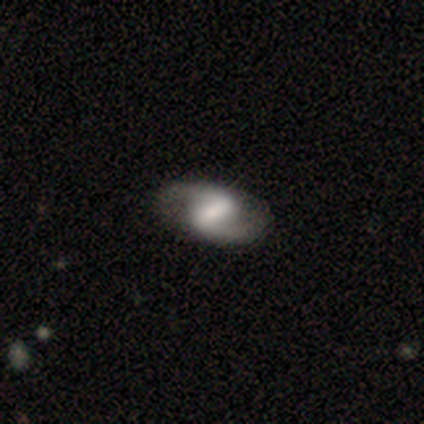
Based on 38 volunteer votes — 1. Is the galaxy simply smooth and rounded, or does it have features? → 76% featured or disk, 16% smooth, 8% star or artifact.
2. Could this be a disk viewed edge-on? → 100% no, 0% yes.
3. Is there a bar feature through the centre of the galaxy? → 45% weak, 41% strong, 14% no.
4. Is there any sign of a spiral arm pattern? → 93% yes, 7% no.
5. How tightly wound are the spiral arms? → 59% medium, 30% loose, 11% tight.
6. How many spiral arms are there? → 100% 2, 0% 1, 0% 3, 0% 4, 0% more than 4, 0% can't tell.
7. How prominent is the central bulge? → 31% moderate, 28% large, 24% small, 17% none, 0% dominant.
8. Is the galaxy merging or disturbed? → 86% none, 9% minor disturbance, 3% major disturbance, 3% merger.